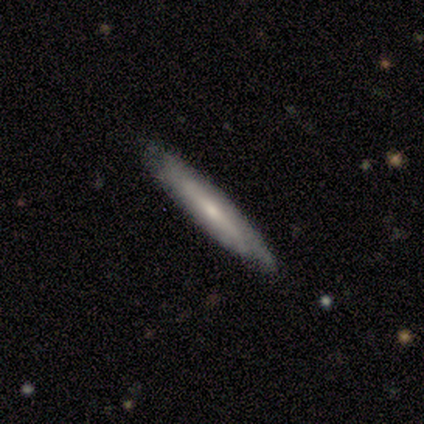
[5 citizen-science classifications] Smooth or featured? 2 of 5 (40%, tied with featured or disk) said smooth. How rounded? 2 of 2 (100%) said cigar-shaped. Merging? 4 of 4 (100%) said none.